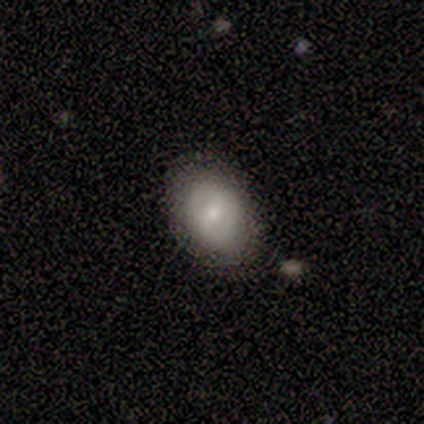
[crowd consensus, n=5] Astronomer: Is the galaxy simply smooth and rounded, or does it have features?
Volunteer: smooth — 40%, tied with featured or disk at 40%.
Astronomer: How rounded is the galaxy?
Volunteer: in between — 100%.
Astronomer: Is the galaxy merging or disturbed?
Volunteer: none — 100%.